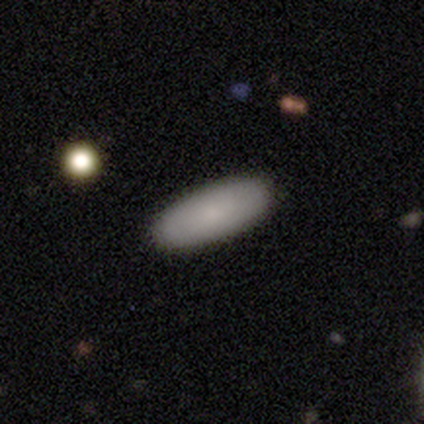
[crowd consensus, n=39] Morphology: type=smooth (90%); roundness=in between (74%); merging=none (79%).